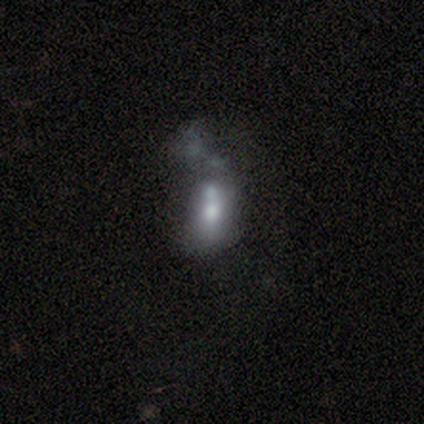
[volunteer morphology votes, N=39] Overall: featured or disk (49%; smooth 38%). Edge-on disk: no (95%). Bar: no (100%). Spiral arms: no (89%). Bulge size: moderate (61%; none 22%). Merging: merger (50%; major disturbance 32%).